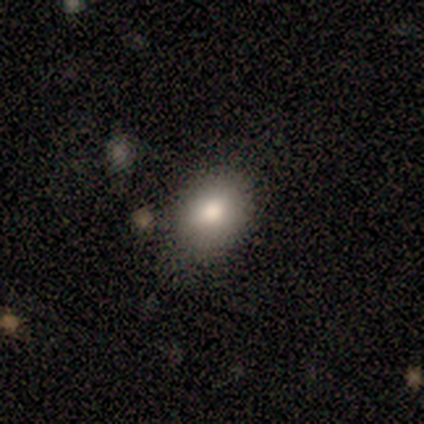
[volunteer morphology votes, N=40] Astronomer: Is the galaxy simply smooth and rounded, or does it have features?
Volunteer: smooth — 75%.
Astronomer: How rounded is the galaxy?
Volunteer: in between — 77%.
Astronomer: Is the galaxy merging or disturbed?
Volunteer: none — 71%.